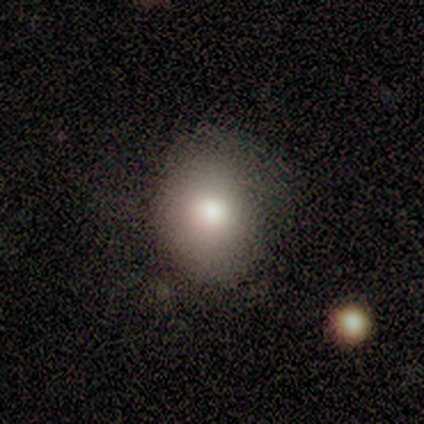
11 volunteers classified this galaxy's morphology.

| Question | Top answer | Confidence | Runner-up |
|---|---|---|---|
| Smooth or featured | smooth | 91% | star or artifact (9%) |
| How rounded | round | 70% | in between (30%) |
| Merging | minor disturbance | 60% | none (40%) |